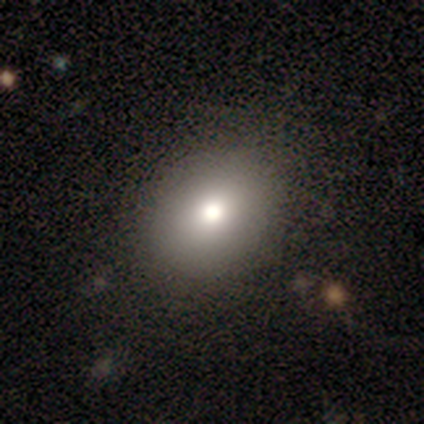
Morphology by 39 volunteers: Overall: smooth (72%). How rounded: in between (75%). Merging: none (81%).